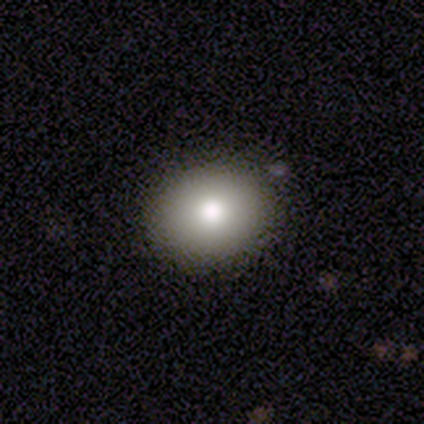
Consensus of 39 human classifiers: smooth_or_featured: smooth (p=0.77) [alt: star or artifact p=0.15]
how_rounded: round (p=0.73) [alt: in between p=0.27]
merging: none (p=1.00)